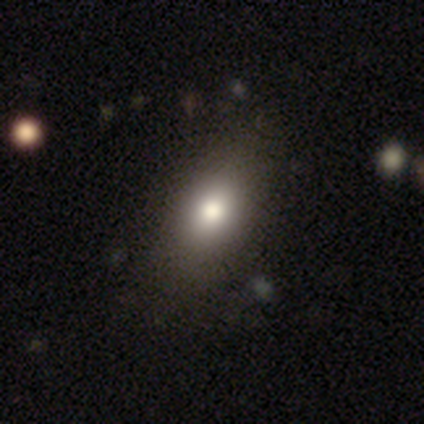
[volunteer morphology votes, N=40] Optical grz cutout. It shows a smooth galaxy with no disk features (85%) that is in between round and cigar-shaped (79%). Merging: none (72%).